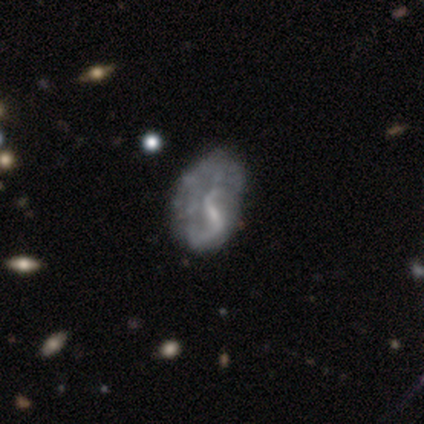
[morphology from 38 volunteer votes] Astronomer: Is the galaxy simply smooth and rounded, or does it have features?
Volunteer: featured or disk — 74%.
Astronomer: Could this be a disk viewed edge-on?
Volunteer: no — 100%.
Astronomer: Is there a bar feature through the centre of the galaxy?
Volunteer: weak — 50% (runner-up: strong, 29%).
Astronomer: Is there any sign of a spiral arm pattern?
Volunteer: yes — 71%.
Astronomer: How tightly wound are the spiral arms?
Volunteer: loose — 85%.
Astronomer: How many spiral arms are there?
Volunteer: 2 — 60%.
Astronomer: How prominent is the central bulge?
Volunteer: none — 46% (runner-up: small, 29%).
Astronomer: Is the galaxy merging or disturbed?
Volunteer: none — 38% (runner-up: major disturbance, 26%).